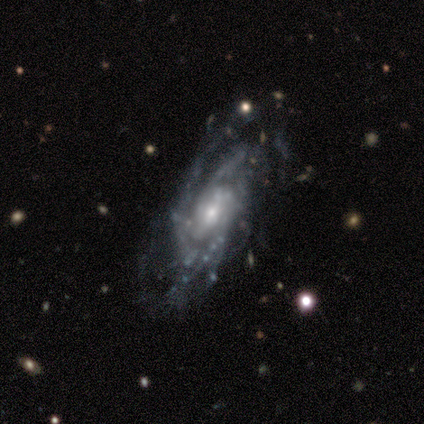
This is clearly a featured or disk galaxy (100%). It is clearly not viewed edge-on (100%). Bar: likely no (60%). Spiral arm pattern: clearly yes (100%). Spiral arm count: likely 2 (60%). Spiral winding: likely tight (60%). Central bulge: clearly small (80%). Merging: likely none (60%).